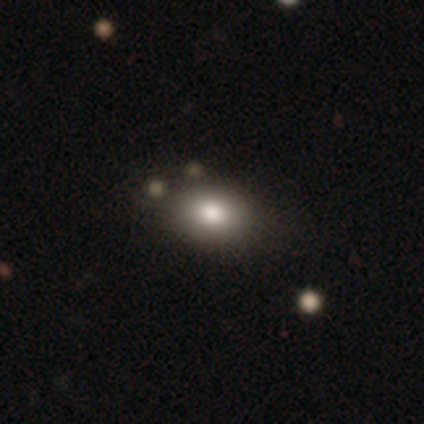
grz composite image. It shows a smooth galaxy with no disk features (80%) that is in between round and cigar-shaped (75%). Merging: none (100%).